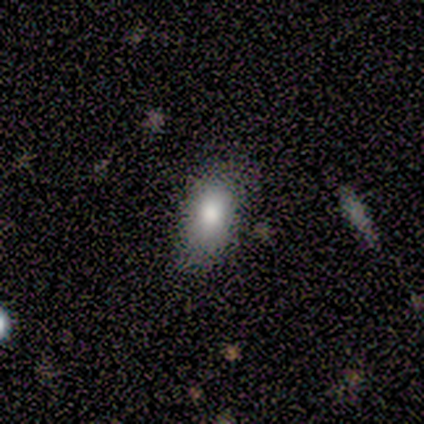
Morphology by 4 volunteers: Volunteers were most divided on "how rounded": in between: 67%, cigar-shaped: 33%, round: 0%. More confident: smooth or featured — smooth (75%); merging — none (75%).